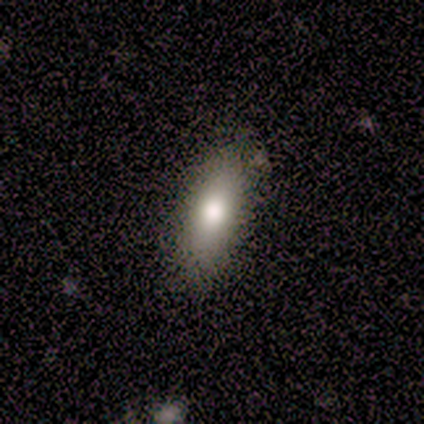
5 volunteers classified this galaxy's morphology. Q: Smooth or featured?
A: smooth (100%)
Q: How rounded?
A: in between (80%); runner-up: cigar-shaped (20%)
Q: Merging?
A: none (80%); runner-up: minor disturbance (20%)